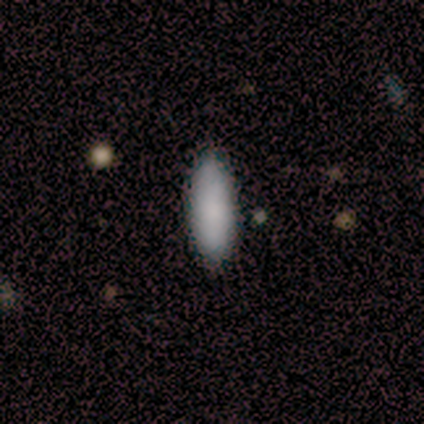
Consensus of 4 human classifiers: A smooth galaxy with no disk features (75%) that is in between round and cigar-shaped (100%).

Vote fractions:
- Smooth or featured? smooth: 75% / featured or disk: 25% / star or artifact: 0%
- How rounded? in between: 100% / round: 0% / cigar-shaped: 0%
- Merging? none: 100% / minor disturbance: 0% / major disturbance: 0% / merger: 0%